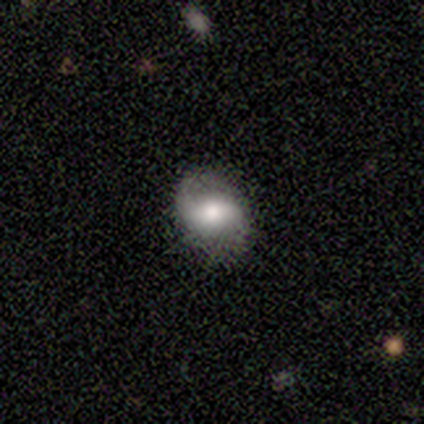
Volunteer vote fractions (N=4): Smooth or featured? 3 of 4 (75%) said featured or disk. Edge-on disk? 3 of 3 (100%) said no. Bar? 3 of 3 (100%) said weak. Spiral arms? 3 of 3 (100%) said yes. Spiral winding? 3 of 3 (100%) said loose. Spiral arm count? 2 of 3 (67%) said 1. Bulge size? 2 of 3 (67%) said moderate. Merging? 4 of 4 (100%) said none.